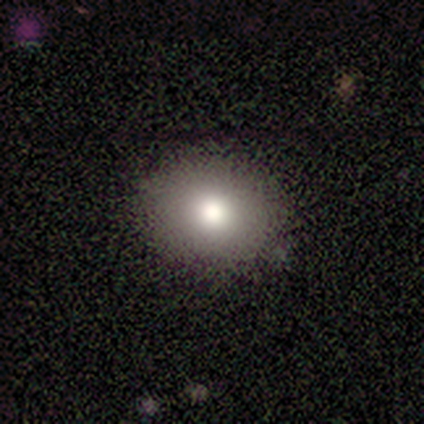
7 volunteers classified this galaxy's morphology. Q: Smooth or featured?
A: smooth (100%)
Q: How rounded?
A: round (71%); runner-up: in between (29%)
Q: Merging?
A: none (100%)